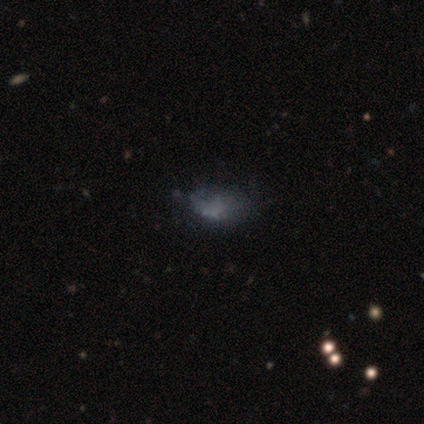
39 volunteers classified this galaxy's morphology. Smooth or featured: featured or disk — 46% (smooth — 41%)
Edge-on disk: no — 100%
Bar: no — 89% (weak — 11%)
Spiral arms: no — 94% (yes — 6%)
Bulge size: none — 83% (moderate — 11%)
Merging: none — 47% (minor disturbance — 29%)